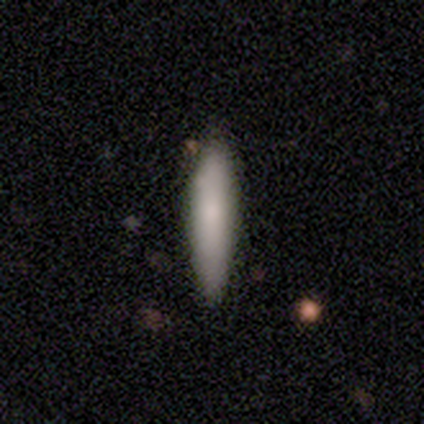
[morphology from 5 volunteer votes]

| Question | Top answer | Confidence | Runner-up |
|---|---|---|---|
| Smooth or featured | smooth | 100% | — |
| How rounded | cigar-shaped | 100% | — |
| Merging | none | 100% | — |